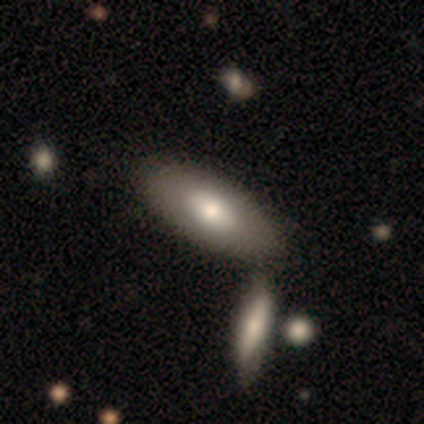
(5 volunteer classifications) smooth_or_featured: featured or disk (p=0.60) [alt: smooth p=0.40]
disk_edge_on: no (p=1.00)
bar: no (p=1.00)
has_spiral_arms: no (p=1.00)
bulge_size: moderate (p=1.00)
merging: none (p=0.60) [alt: merger p=0.40]